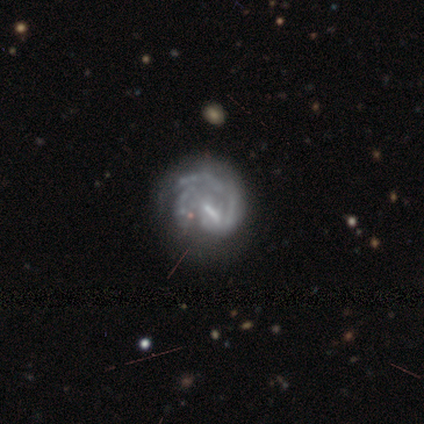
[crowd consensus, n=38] Q: Smooth or featured?
A: featured or disk (95%); runner-up: smooth (5%)
Q: Edge-on disk?
A: no (97%); runner-up: yes (3%)
Q: Bar?
A: weak (51%); runner-up: no (26%)
Q: Spiral arms?
A: yes (89%); runner-up: no (11%)
Q: Spiral winding?
A: tight (45%); runner-up: medium (35%)
Q: Spiral arm count?
A: can't tell (48%); runner-up: 2 (19%)
Q: Bulge size?
A: small (46%); runner-up: none (34%)
Q: Merging?
A: none (42%); tied with: major disturbance (42%)